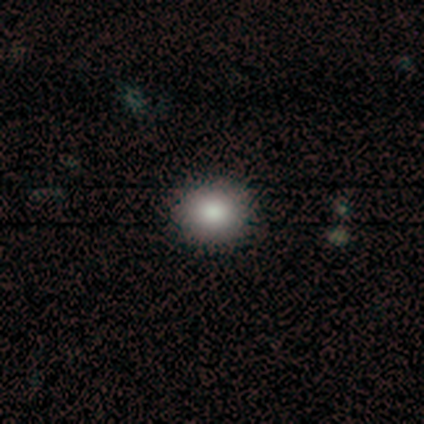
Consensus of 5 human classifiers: smooth 100%, featured or disk 0%, star or artifact 0%. Down the decision tree: how rounded — round (80%); merging — none (100%).